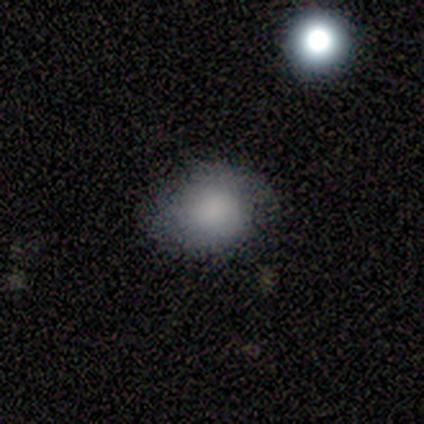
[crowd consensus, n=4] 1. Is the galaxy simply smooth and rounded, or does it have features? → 100% smooth, 0% featured or disk, 0% star or artifact.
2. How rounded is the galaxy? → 50% round (tied), 50% in between (tied), 0% cigar-shaped.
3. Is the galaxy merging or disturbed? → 50% none, 25% minor disturbance, 25% major disturbance, 0% merger.